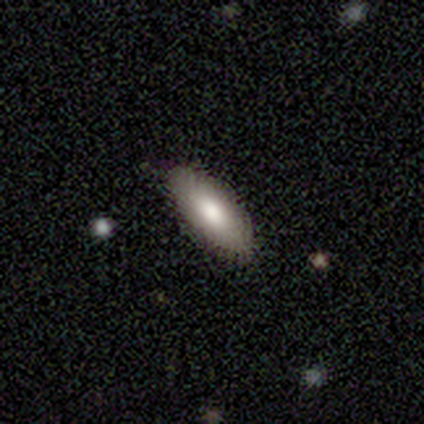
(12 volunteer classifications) Overall: smooth (67%). How rounded: in between (75%). Merging: none (91%).